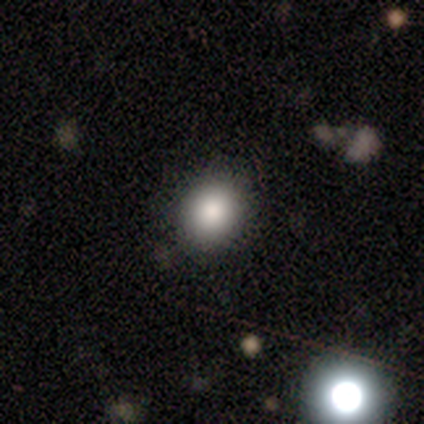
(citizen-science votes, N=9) Smooth or featured? smooth (78%)
How rounded? in between (71%)
Merging? none (89%)